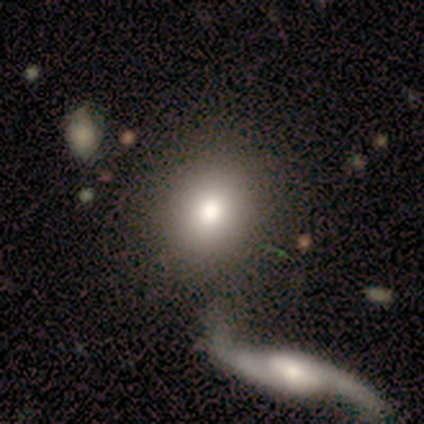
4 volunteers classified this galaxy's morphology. A smooth galaxy with no disk features (75%) that is round (67%). Merging: none (75%).